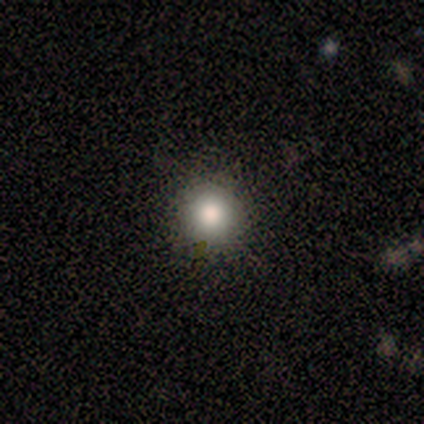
Smooth or featured? smooth (88%)
How rounded? round (100%)
Merging? none (100%)